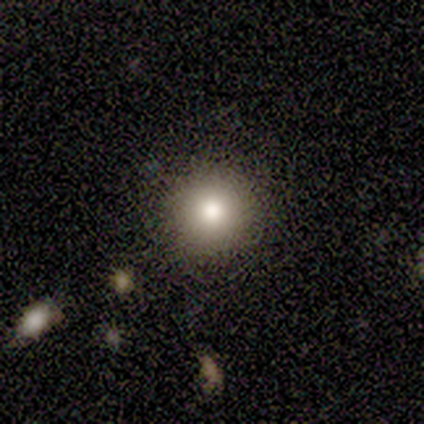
This is likely a smooth galaxy (67%). How rounded: clearly round (100%). Merging: clearly none (88%).